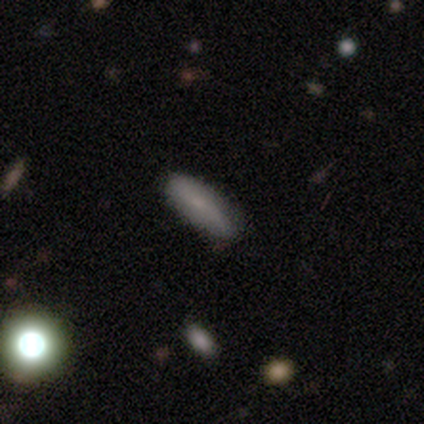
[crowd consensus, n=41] Volunteers were most divided on "smooth or featured": smooth: 61%, featured or disk: 29%, star or artifact: 10%. More confident: merging — none (81%); how rounded — in between (76%).